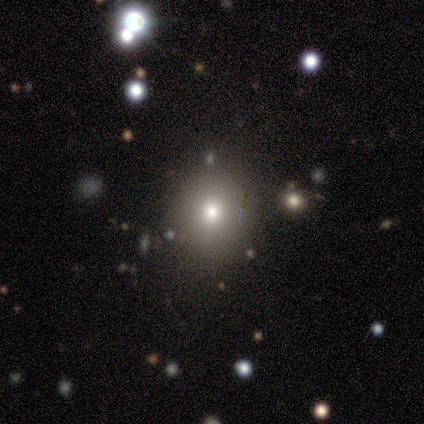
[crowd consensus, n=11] smooth 64%, featured or disk 18%, star or artifact 18%. Down the decision tree: how rounded — round (57%); merging — none (89%).